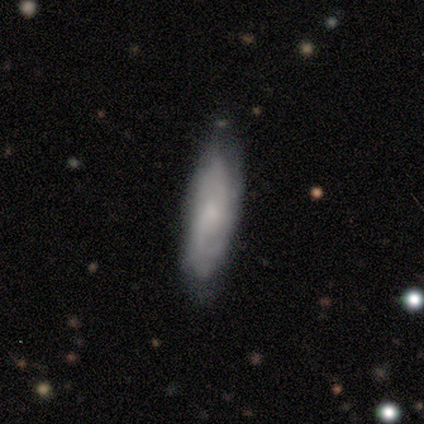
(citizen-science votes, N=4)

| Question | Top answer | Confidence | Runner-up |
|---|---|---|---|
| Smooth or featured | smooth | 50% | tied: featured or disk (50%) |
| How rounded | in between | 50% | tied: cigar-shaped (50%) |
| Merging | none | 100% | — |